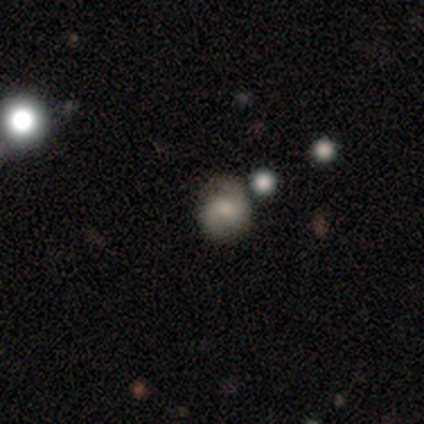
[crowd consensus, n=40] Volunteers were most divided on "spiral winding": medium: 50%, tight: 40%, loose: 10%. More confident: edge-on disk — no (100%); spiral arms — yes (87%); spiral arm count — 2 (75%); merging — none (72%); bar — no (61%); smooth or featured — featured or disk (57%); bulge size — moderate (57%).